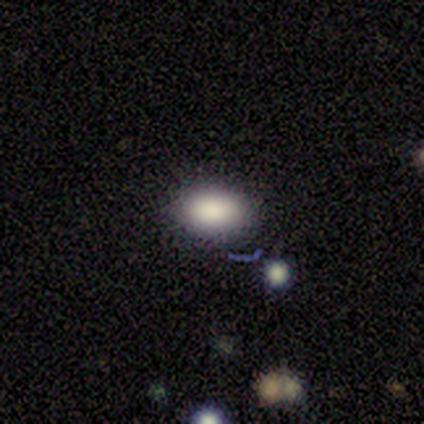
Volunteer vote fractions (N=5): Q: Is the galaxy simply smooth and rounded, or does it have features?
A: smooth — 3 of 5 (60%).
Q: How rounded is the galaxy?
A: in between — 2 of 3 (67%).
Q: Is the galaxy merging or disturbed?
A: none — 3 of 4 (75%).